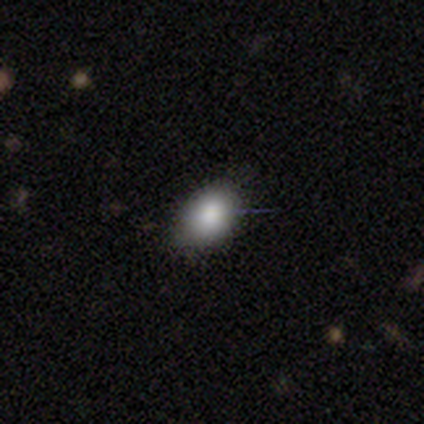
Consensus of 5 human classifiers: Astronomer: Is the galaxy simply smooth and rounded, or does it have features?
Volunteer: smooth — 100%.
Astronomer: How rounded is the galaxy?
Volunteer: in between — 80%.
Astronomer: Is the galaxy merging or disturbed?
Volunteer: none — 80%.